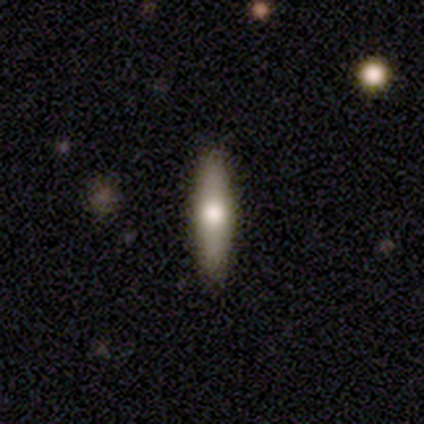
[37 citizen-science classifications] Morphology: type=smooth (57%); roundness=cigar-shaped (81%); merging=none (82%).